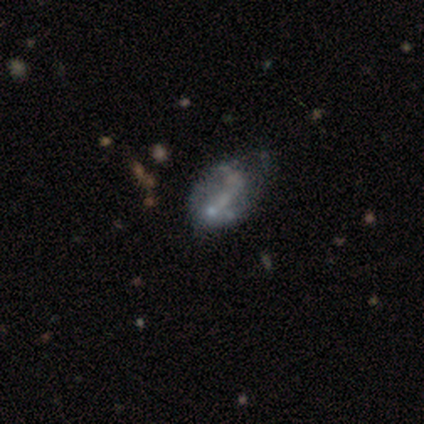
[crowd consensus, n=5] A featured or disk galaxy (40%, tied with star or artifact) with no bar (100%), no spiral arms (100%) and a small central bulge (50%, tied with none).

Vote fractions:
- Smooth or featured? featured or disk: 40% (tied) / star or artifact: 40% (tied) / smooth: 20%
- Edge-on disk? no: 100% / yes: 0%
- Bar? no: 100% / strong: 0% / weak: 0%
- Spiral arms? no: 100% / yes: 0%
- Bulge size? small: 50% (tied) / none: 50% (tied) / dominant: 0% / large: 0% / moderate: 0%
- Merging? major disturbance: 67% / minor disturbance: 33% / none: 0% / merger: 0%